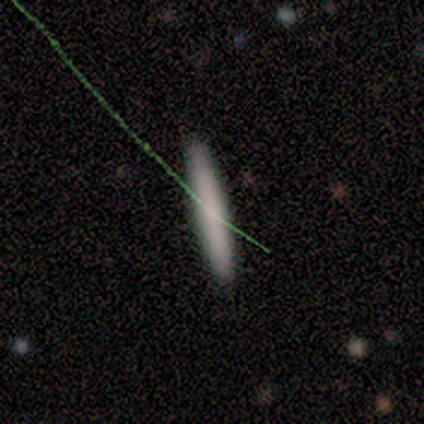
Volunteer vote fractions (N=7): A smooth galaxy with no disk features (86%) that is cigar-shaped (100%). Merging: none (100%).